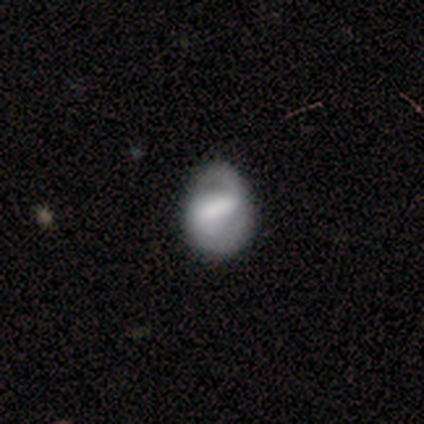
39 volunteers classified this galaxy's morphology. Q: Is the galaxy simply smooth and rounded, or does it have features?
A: featured or disk — 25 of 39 (64%).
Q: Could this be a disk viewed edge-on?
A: no — 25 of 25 (100%).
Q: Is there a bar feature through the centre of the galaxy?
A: strong — 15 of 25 (60%).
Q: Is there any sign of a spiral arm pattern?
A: yes — 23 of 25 (92%).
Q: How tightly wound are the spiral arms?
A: medium — 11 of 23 (48%).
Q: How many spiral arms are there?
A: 2 — 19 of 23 (83%).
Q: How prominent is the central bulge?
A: none — 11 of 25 (44%).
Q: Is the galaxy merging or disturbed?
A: none — 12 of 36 (33%).